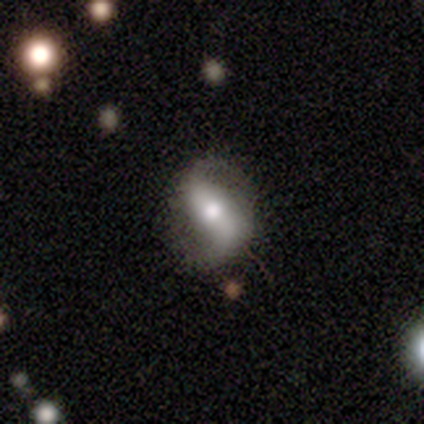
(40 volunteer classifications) Morphology: type=featured or disk (82%); edge-on=no (97%); bar=strong (53%); spiral arms=yes (88%); winding=loose (79%); arm count=2 (86%); bulge=moderate (75%); merging=none (75%).